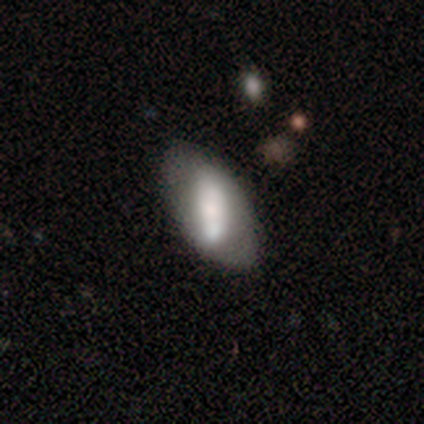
Smooth or featured: smooth — 56% (featured or disk — 44%)
How rounded: in between — 95% (round — 5%)
Merging: none — 56% (minor disturbance — 23%)